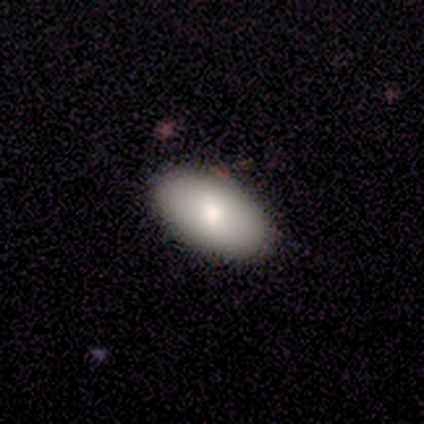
Smooth or featured: smooth — 100%
How rounded: in between — 100%
Merging: none — 80% (minor disturbance — 20%)